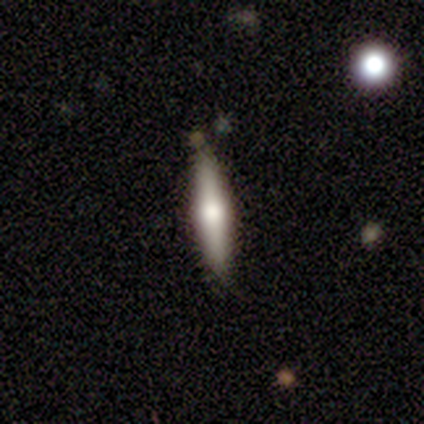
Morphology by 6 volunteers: type=featured or disk (83%); edge-on=yes (100%); edge-on bulge=rounded (100%); merging=none (67%).